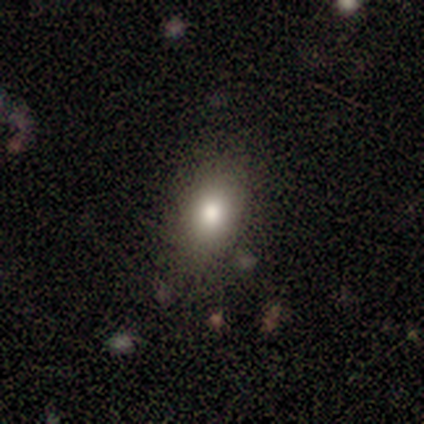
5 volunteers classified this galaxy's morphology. Overall: smooth (80%). How rounded: in between (100%). Merging: none (75%).